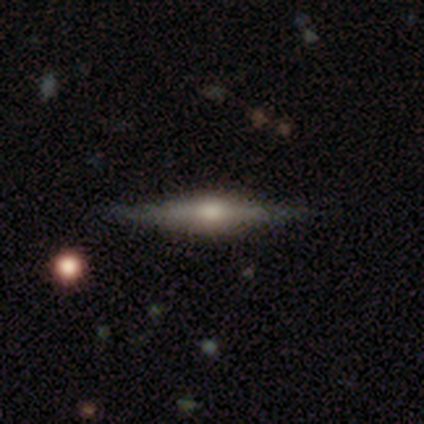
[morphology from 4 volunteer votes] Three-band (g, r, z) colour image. It shows a featured or disk galaxy (75%) viewed edge-on (100%) with a rounded central bulge (100%). Merging: none (50%, tied with minor disturbance).